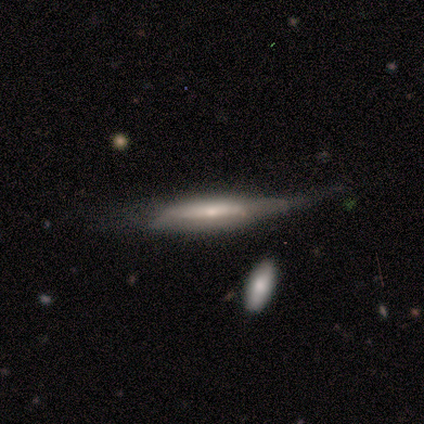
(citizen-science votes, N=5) Overall: featured or disk (60%; smooth 40%). Edge-on disk: yes (67%; no 33%). Edge-on bulge: boxy (50%, tied with none). Merging: minor disturbance (60%; none 20%).